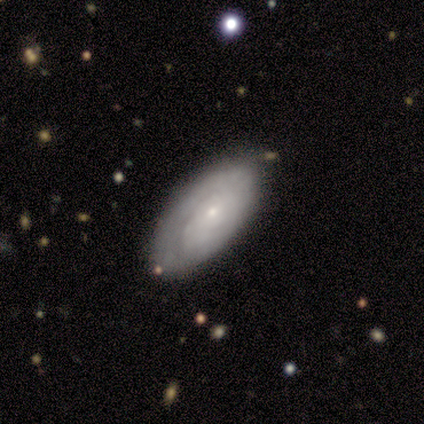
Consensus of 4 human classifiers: Smooth or featured? 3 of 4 (75%) said featured or disk. Edge-on disk? 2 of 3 (67%) said no. Bar? 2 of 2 (100%) said no. Spiral arms? 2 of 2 (100%) said yes. Spiral winding? 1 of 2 (50%, tied with medium) said tight. Spiral arm count? 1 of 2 (50%, tied with can't tell) said 1. Bulge size? 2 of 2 (100%) said small. Merging? 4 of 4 (100%) said none.